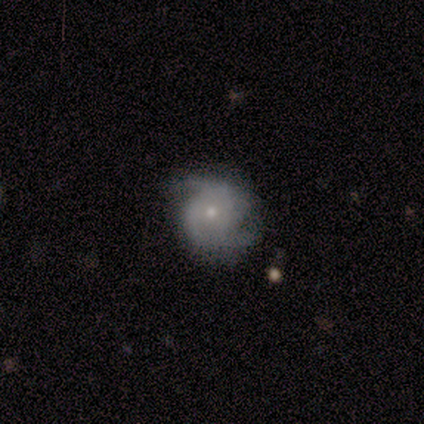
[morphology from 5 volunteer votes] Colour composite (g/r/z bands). It shows a smooth galaxy with no disk features (60%) that is round (100%). Merging: none (60%).